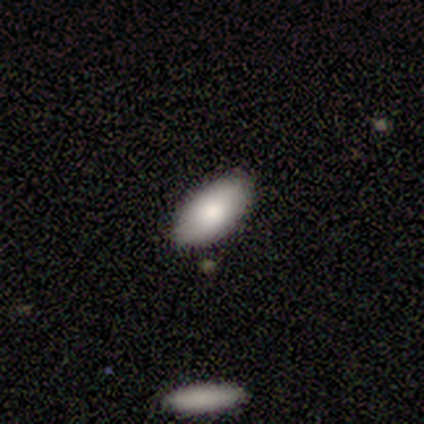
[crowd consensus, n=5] smooth_or_featured: smooth (p=0.80) [alt: star or artifact p=0.20]
how_rounded: in between (p=1.00)
merging: none (p=1.00)